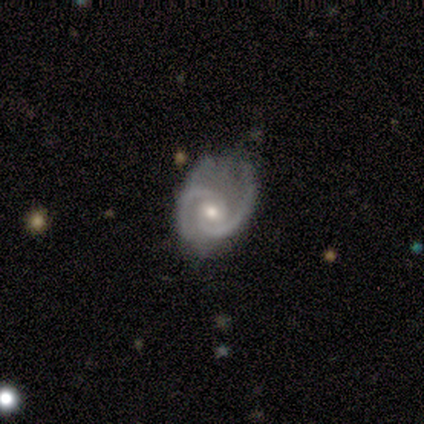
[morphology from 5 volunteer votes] Overall: featured or disk (80%). Edge-on disk: no (100%). Bar: no (50%; strong 25%). Spiral arms: yes (100%). Spiral arm count: 2 (75%). Spiral winding: tight (100%). Bulge size: moderate (75%). Merging: none (60%; minor disturbance 20%).